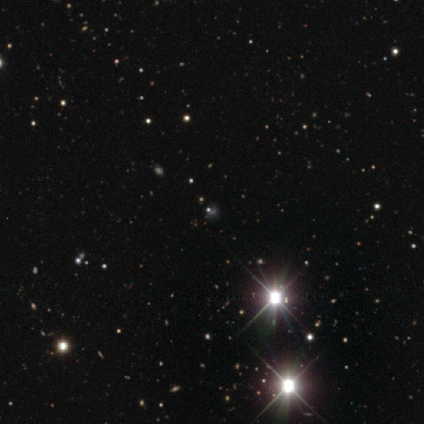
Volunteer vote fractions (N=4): Smooth or featured? star or artifact (75%)